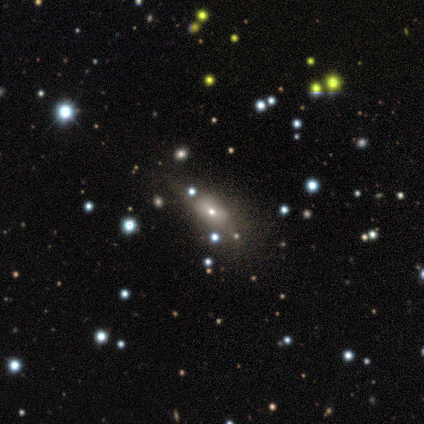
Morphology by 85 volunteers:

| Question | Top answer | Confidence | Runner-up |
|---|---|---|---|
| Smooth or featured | smooth | 61% | featured or disk (27%) |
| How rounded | in between | 88% | round (10%) |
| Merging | none | 61% | minor disturbance (27%) |